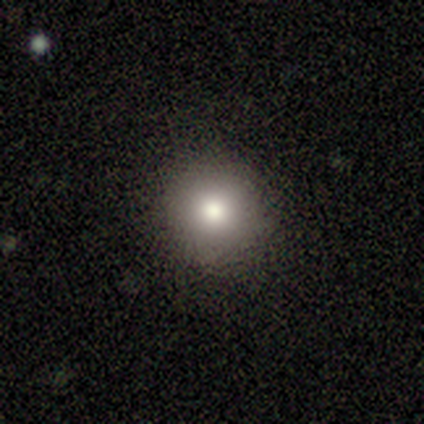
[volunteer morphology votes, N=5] type=smooth (100%); roundness=round (100%); merging=none (60%).